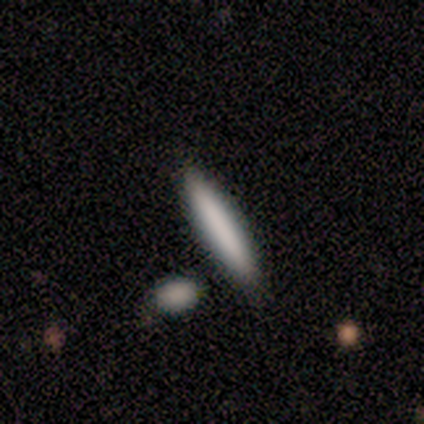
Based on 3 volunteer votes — A smooth galaxy with no disk features (67%) that is cigar-shaped (100%). Merging: none (100%).